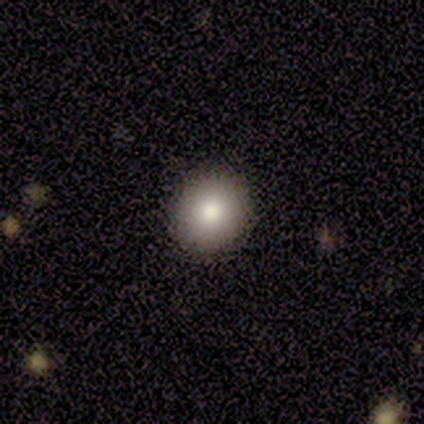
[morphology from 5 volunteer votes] This is clearly a smooth galaxy (80%). How rounded: clearly round (100%). Merging: clearly none (100%).